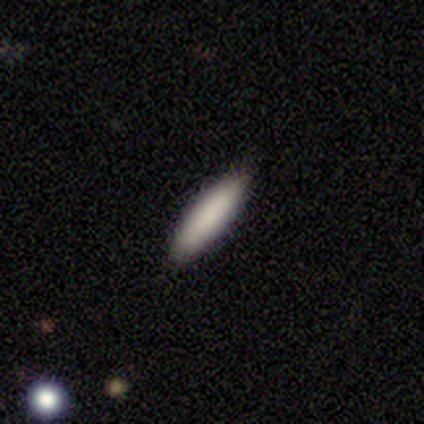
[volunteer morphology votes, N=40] Smooth or featured?
  - smooth: 82% *
  - featured or disk: 15%
  - star or artifact: 2%
How rounded?
  - cigar-shaped: 73% *
  - in between: 27%
  - round: 0%
Merging?
  - none: 95% *
  - minor disturbance: 5%
  - major disturbance: 0%
  - merger: 0%